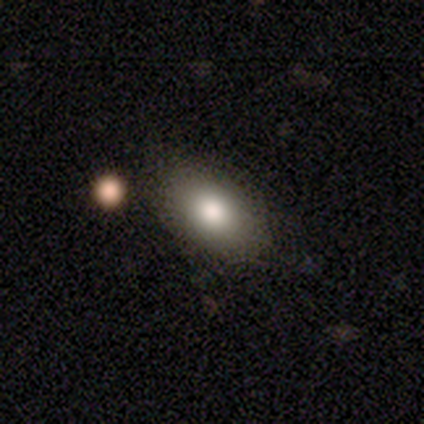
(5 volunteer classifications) Volunteers were most divided on "how rounded": in between: 75%, round: 25%, cigar-shaped: 0%. More confident: smooth or featured — smooth (80%); merging — none (80%).